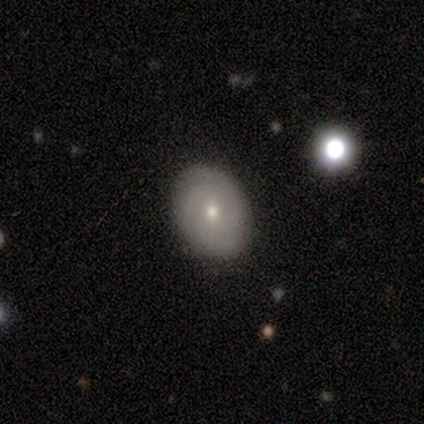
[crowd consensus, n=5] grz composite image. It shows a featured or disk galaxy (60%) with no bar (100%), 2 (50%, tied with can't tell) tight (50%, tied with medium) spiral arms (67%) and a moderate central bulge (67%). Merging: none (75%).